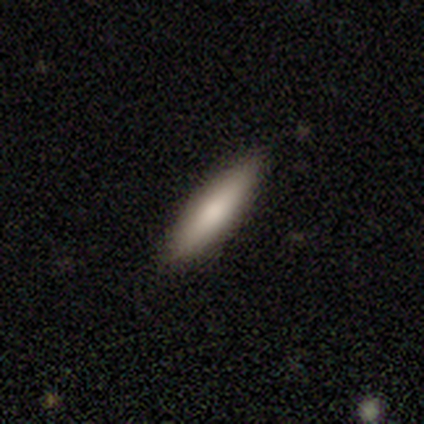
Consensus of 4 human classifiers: A smooth galaxy with no disk features (100%) that is cigar-shaped (100%).

Vote fractions:
- Smooth or featured? smooth: 100% / featured or disk: 0% / star or artifact: 0%
- How rounded? cigar-shaped: 100% / round: 0% / in between: 0%
- Merging? none: 100% / minor disturbance: 0% / major disturbance: 0% / merger: 0%